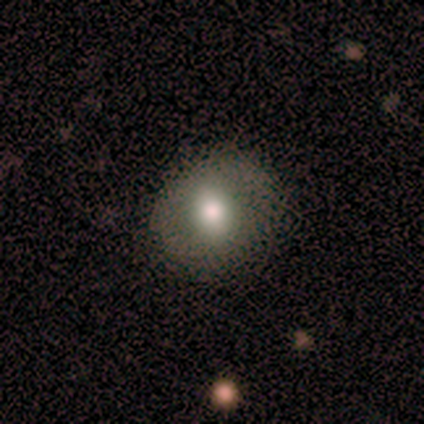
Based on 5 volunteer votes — A smooth galaxy with no disk features (80%) that is round (75%).

Vote fractions:
- Smooth or featured? smooth: 80% / featured or disk: 20% / star or artifact: 0%
- How rounded? round: 75% / cigar-shaped: 25% / in between: 0%
- Merging? none: 60% / minor disturbance: 40% / major disturbance: 0% / merger: 0%